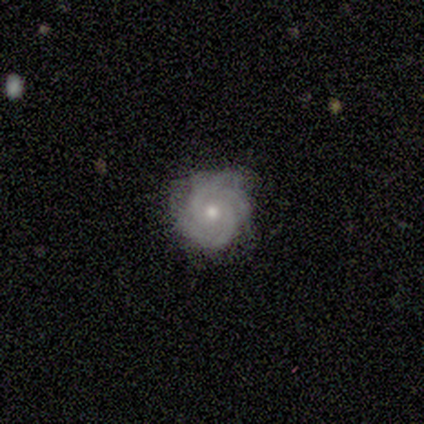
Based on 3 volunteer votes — smooth 33% (tied), featured or disk 33% (tied), star or artifact 33% (tied). Down the decision tree: how rounded — round (100%); merging — none (50%, tied with minor disturbance).